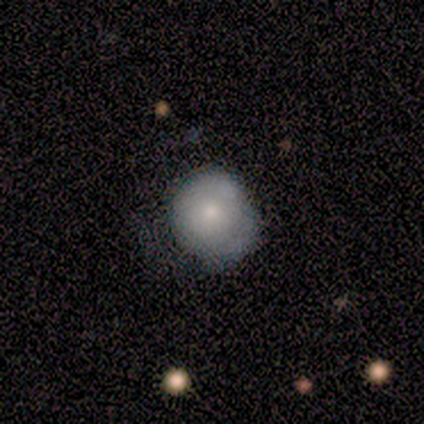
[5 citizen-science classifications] Smooth or featured?
  - smooth: 100% *
  - featured or disk: 0%
  - star or artifact: 0%
How rounded?
  - round: 100% *
  - in between: 0%
  - cigar-shaped: 0%
Merging?
  - minor disturbance: 60% *
  - none: 40%
  - major disturbance: 0%
  - merger: 0%